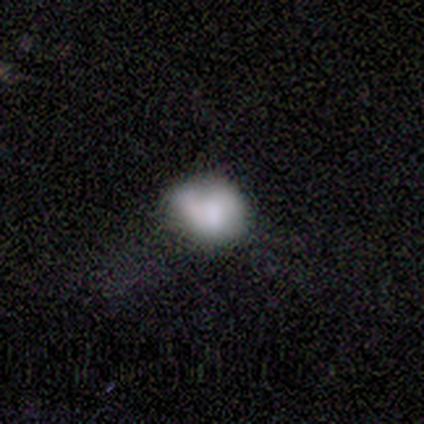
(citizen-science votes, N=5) Volunteers were most divided on "merging": minor disturbance: 40%, none: 20%, major disturbance: 20%, merger: 20%. More confident: how rounded — in between (100%); smooth or featured — smooth (80%).